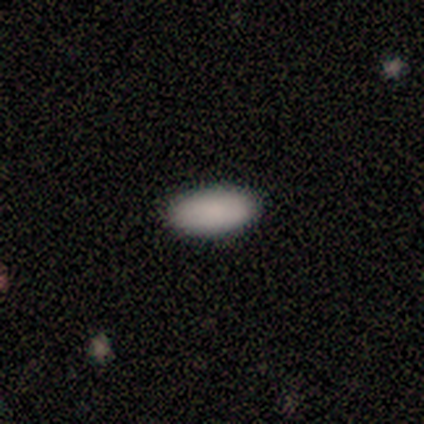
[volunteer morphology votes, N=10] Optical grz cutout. It shows a smooth galaxy with no disk features (100%) that is in between round and cigar-shaped (80%). Merging: none (80%).